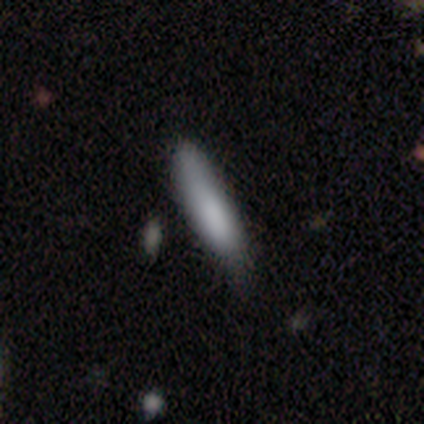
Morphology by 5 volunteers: Smooth or featured: smooth — 80% (featured or disk — 20%)
How rounded: in between — 50% (tied with cigar-shaped — 50%)
Merging: minor disturbance — 80% (none — 20%)